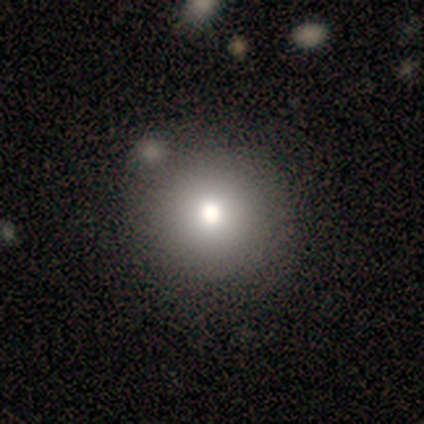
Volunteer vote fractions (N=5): A smooth galaxy with no disk features (80%) that is round (100%). Merging: none (75%).